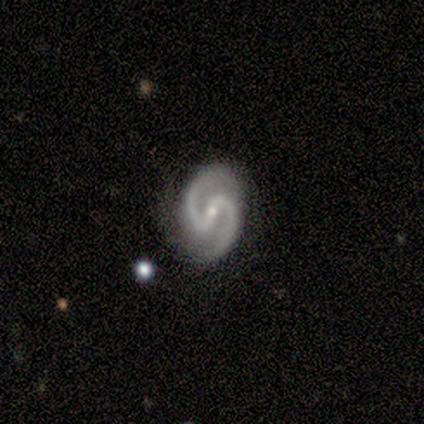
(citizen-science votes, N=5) smooth-or-featured: featured or disk: 80% | smooth: 20% | star or artifact: 0%
  disk-edge-on: no: 100% | yes: 0%
    bar: weak: 50% | strong: 25% | no: 25%
    has-spiral-arms: yes: 100% | no: 0%
      spiral-winding: medium: 100% | tight: 0% | loose: 0%
      spiral-arm-count: 2: 100% | 1: 0% | 3: 0% | 4: 0% | more than 4: 0% | can't tell: 0%
    bulge-size: moderate: 50% (tied) | small: 50% (tied) | dominant: 0% | large: 0% | none: 0%
  merging: none: 80% | minor disturbance: 20% | major disturbance: 0% | merger: 0%